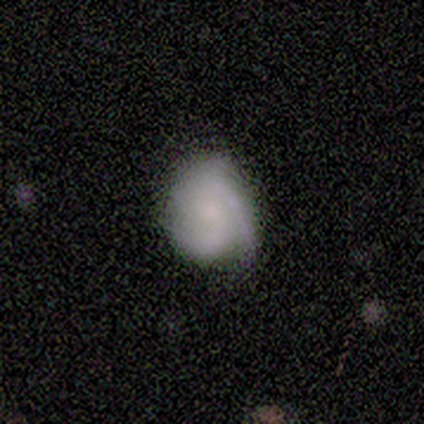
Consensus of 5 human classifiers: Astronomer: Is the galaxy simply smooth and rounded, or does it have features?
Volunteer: smooth — 60% (runner-up: featured or disk, 40%).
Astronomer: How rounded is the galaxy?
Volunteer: in between — 67%.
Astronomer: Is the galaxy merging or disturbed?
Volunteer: none — 80%.